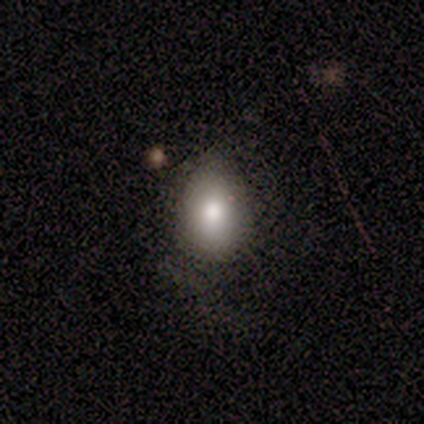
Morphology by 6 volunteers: Overall: smooth (67%). How rounded: in between (75%). Merging: none (60%; minor disturbance 20%).